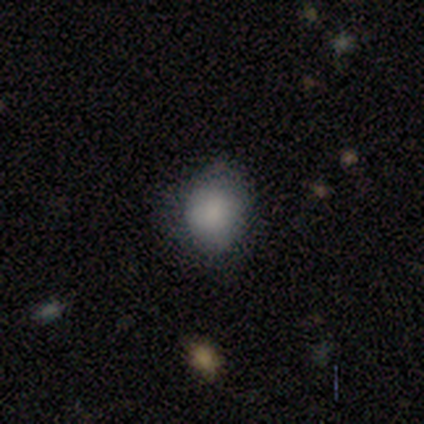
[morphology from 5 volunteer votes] smooth-or-featured: smooth: 100% | featured or disk: 0% | star or artifact: 0%
  how-rounded: round: 100% | in between: 0% | cigar-shaped: 0%
  merging: none: 80% | minor disturbance: 20% | major disturbance: 0% | merger: 0%